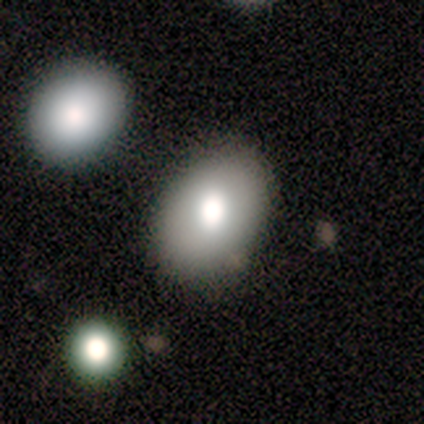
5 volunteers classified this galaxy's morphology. A smooth galaxy with no disk features (80%) that is round (50%, tied with in between).

Vote fractions:
- Smooth or featured? smooth: 80% / featured or disk: 20% / star or artifact: 0%
- How rounded? round: 50% (tied) / in between: 50% (tied) / cigar-shaped: 0%
- Merging? none: 100% / minor disturbance: 0% / major disturbance: 0% / merger: 0%